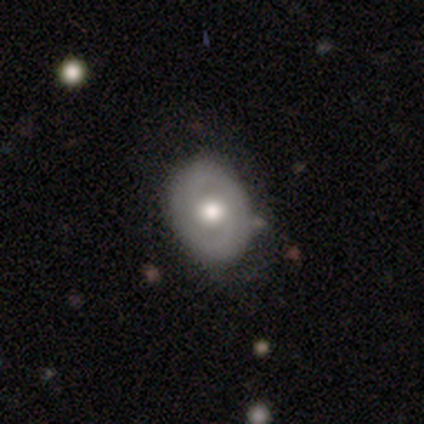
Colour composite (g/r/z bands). It shows a featured or disk galaxy (64%) with no bar (88%), 2 (80%) tight (53%) spiral arms (60%) and a moderate central bulge (56%). Merging: none (42%).